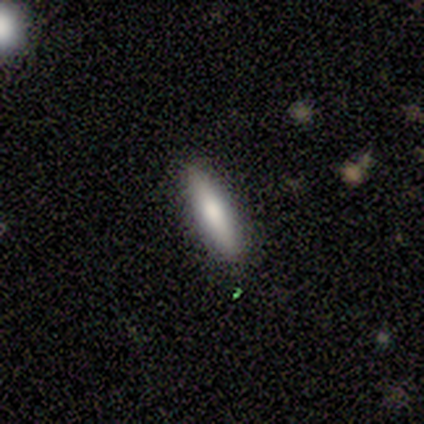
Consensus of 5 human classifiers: smooth-or-featured: smooth: 100% | featured or disk: 0% | star or artifact: 0%
  how-rounded: cigar-shaped: 60% | round: 20% | in between: 20%
  merging: none: 80% | minor disturbance: 20% | major disturbance: 0% | merger: 0%